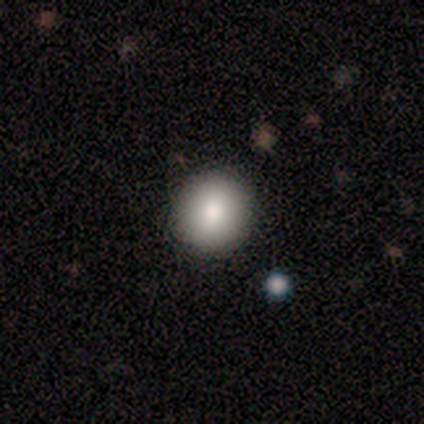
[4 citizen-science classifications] Morphology: type=smooth (75%); roundness=round (100%); merging=none (50%, tied with minor disturbance).